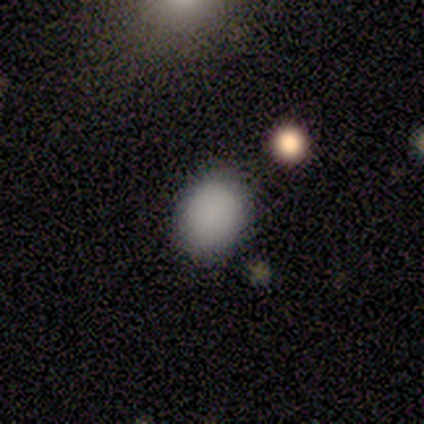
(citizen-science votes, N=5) Overall: smooth (100%). How rounded: in between (100%). Merging: none (80%).